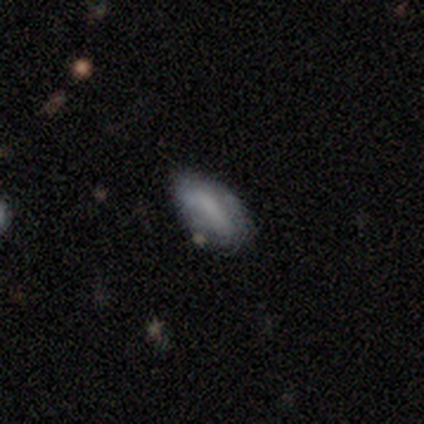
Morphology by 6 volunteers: type=smooth (67%); roundness=in between (100%); merging=none (67%).